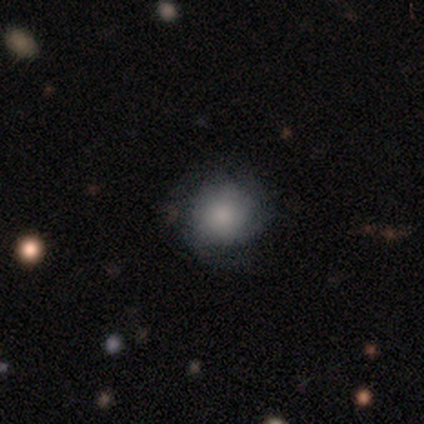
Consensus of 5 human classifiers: Smooth or featured: smooth — 80% (featured or disk — 20%)
How rounded: round — 100%
Merging: none — 100%